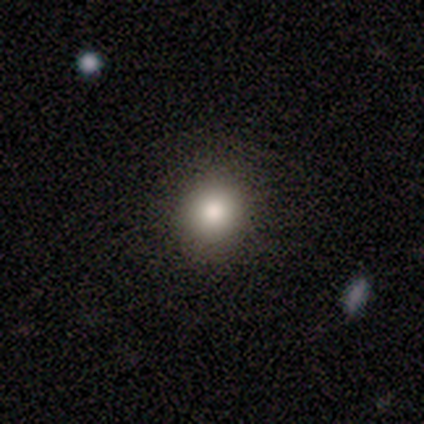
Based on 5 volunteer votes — smooth_or_featured: smooth (p=0.80) [alt: star or artifact p=0.20]
how_rounded: round (p=0.75) [alt: in between p=0.25]
merging: none (p=1.00)